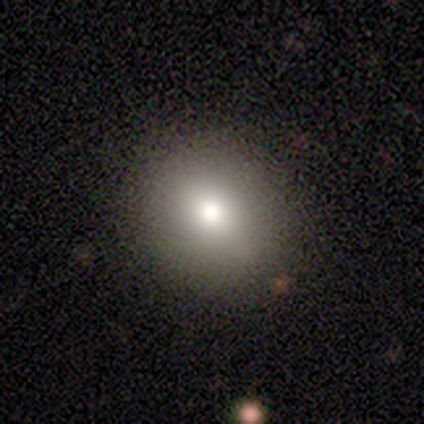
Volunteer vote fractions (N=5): Overall: smooth (80%). How rounded: round (75%). Merging: none (80%).